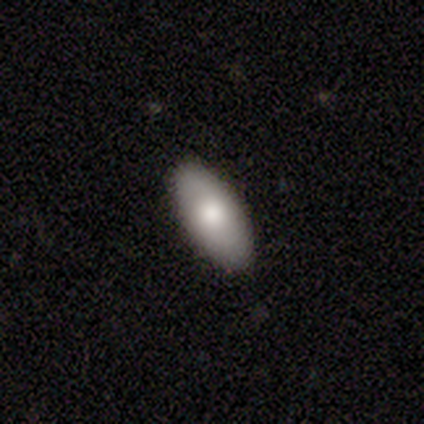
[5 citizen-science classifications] Overall: smooth (60%; featured or disk 20%). How rounded: in between (100%). Merging: none (100%).